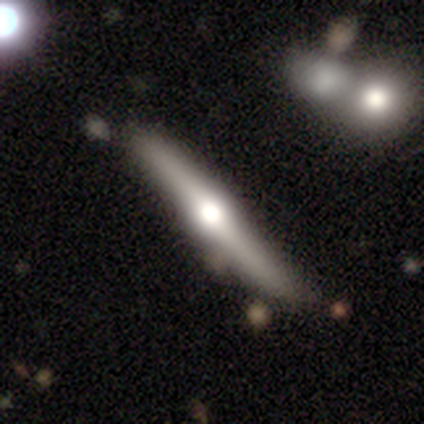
Overall: featured or disk (100%). Edge-on disk: yes (100%). Edge-on bulge: rounded (100%). Merging: none (40%, tied with minor disturbance).